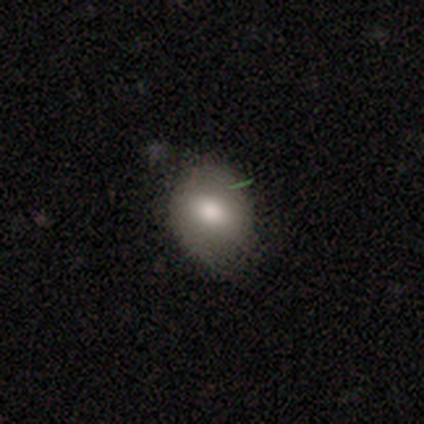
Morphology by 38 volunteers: Smooth or featured?
  - smooth: 76% *
  - featured or disk: 13%
  - star or artifact: 11%
How rounded?
  - in between: 55% *
  - round: 45%
  - cigar-shaped: 0%
Merging?
  - none: 68% *
  - minor disturbance: 29%
  - merger: 3%
  - major disturbance: 0%